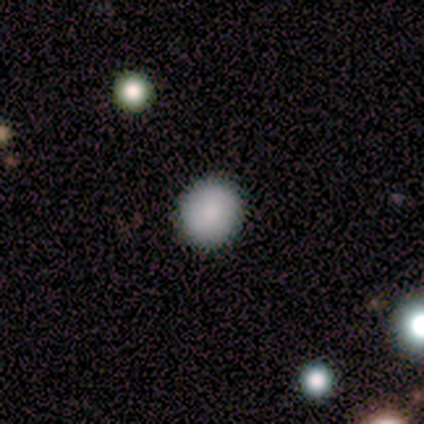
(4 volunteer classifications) Overall: smooth (100%). How rounded: round (100%). Merging: none (75%).